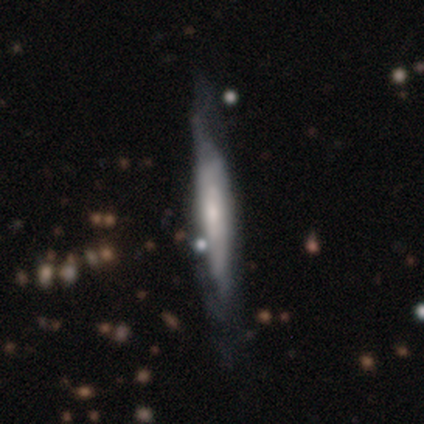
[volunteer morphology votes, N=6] Volunteers were most divided on "edge-on bulge" (3-way tie): boxy: 33%, none: 33%, rounded: 33%. More confident: edge-on disk — yes (75%); smooth or featured — featured or disk (67%); merging — minor disturbance (67%).